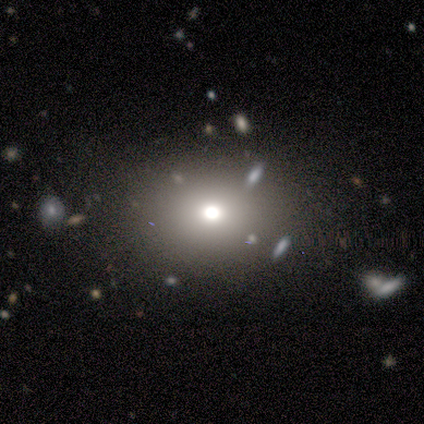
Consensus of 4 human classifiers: smooth-or-featured: star or artifact: 75% | featured or disk: 25% | smooth: 0%